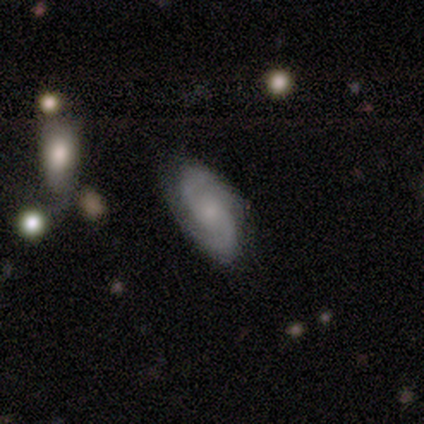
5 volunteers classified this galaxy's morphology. This appears to be a featured or disk galaxy (60%) with no bar (67%), 2 (100%) tight (100%) spiral arms (100%) and no central bulge (67%). Merging: none (100%).